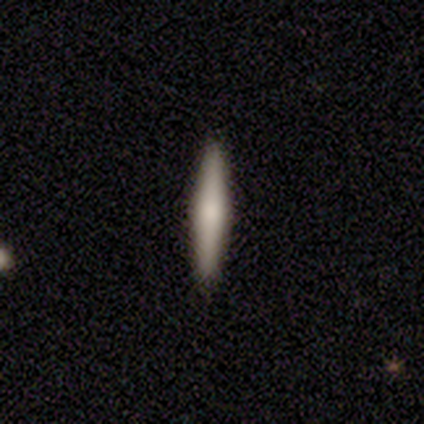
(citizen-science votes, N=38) Morphology: type=smooth (53%); roundness=cigar-shaped (95%); merging=none (94%).